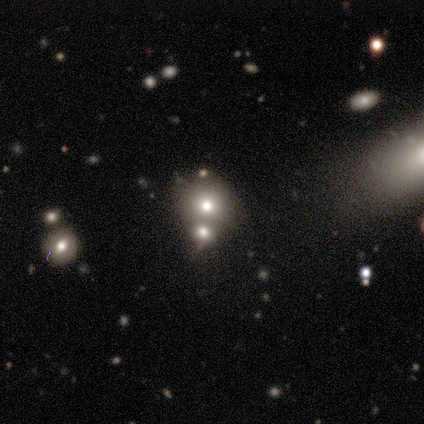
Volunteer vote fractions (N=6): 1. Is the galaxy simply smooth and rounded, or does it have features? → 83% smooth, 17% featured or disk, 0% star or artifact.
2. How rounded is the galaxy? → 80% round, 20% in between, 0% cigar-shaped.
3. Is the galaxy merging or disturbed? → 67% none, 33% merger, 0% minor disturbance, 0% major disturbance.